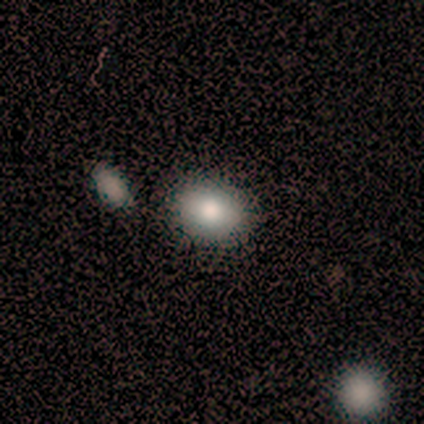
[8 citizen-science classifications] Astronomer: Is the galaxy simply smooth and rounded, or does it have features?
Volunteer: smooth — 88%.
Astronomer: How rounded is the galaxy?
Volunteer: in between — 57% (runner-up: round, 43%).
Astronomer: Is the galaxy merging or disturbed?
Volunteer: none — 88%.